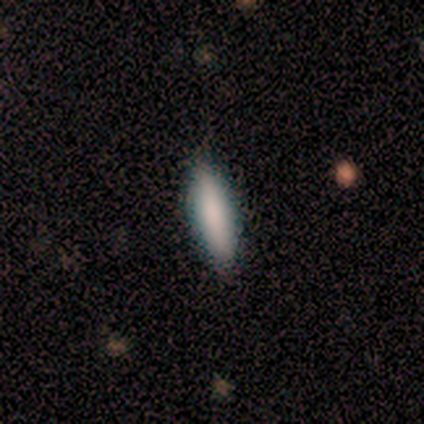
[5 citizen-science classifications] This is likely a smooth galaxy (60%). How rounded: likely in between (67%). Merging: likely none (75%).